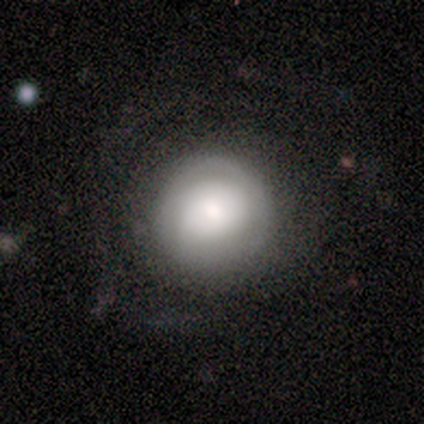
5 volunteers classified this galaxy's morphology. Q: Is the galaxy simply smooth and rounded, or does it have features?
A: featured or disk — 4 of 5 (80%).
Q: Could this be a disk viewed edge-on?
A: no — 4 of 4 (100%).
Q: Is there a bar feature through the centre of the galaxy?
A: no — 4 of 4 (100%).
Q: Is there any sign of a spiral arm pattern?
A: no — 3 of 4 (75%).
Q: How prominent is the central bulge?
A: moderate — 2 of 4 (50%).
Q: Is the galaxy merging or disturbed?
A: minor disturbance — 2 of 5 (40%, tied with major disturbance).